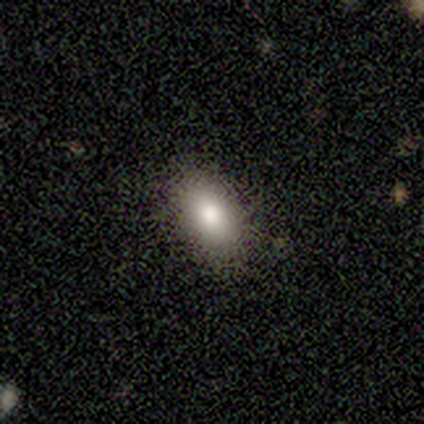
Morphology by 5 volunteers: smooth-or-featured: smooth: 80% | featured or disk: 20% | star or artifact: 0%
  how-rounded: in between: 100% | round: 0% | cigar-shaped: 0%
  merging: none: 100% | minor disturbance: 0% | major disturbance: 0% | merger: 0%